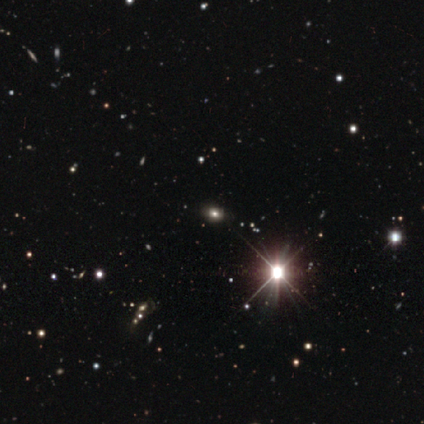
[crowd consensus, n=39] smooth-or-featured: star or artifact: 64% | smooth: 23% | featured or disk: 13%